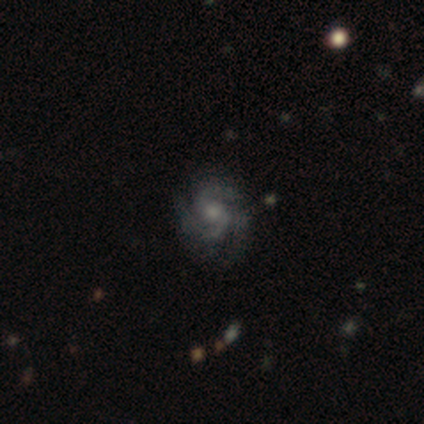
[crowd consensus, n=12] A featured or disk galaxy (75%) with no bar (78%), 3 (44%) medium (67%) spiral arms (100%) and a large central bulge (33%, tied with moderate and small). Merging: none (70%).